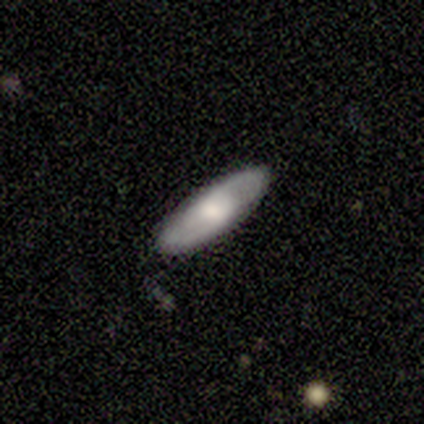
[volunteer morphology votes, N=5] This is likely a smooth galaxy (60%). How rounded: likely in between (67%). Merging: clearly none (80%).